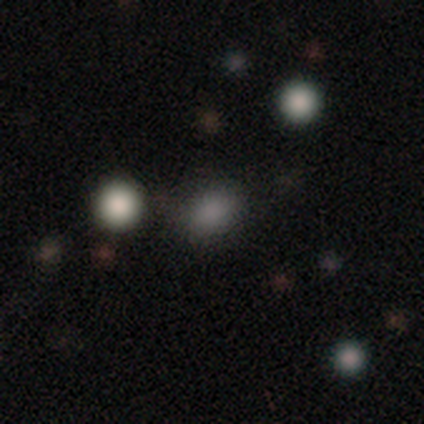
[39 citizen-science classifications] Smooth or featured: smooth — 77% (star or artifact — 18%)
How rounded: in between — 67% (round — 33%)
Merging: none — 84% (minor disturbance — 6%)